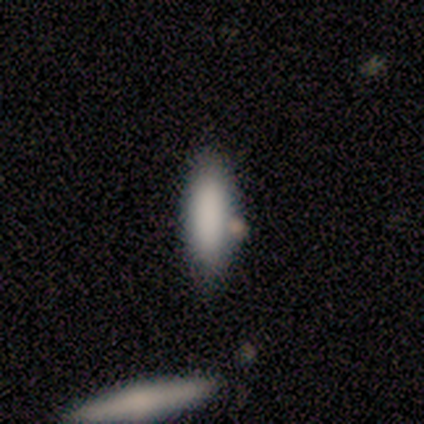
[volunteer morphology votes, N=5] Smooth or featured? 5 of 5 (100%) said smooth. How rounded? 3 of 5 (60%) said cigar-shaped. Merging? 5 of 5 (100%) said none.